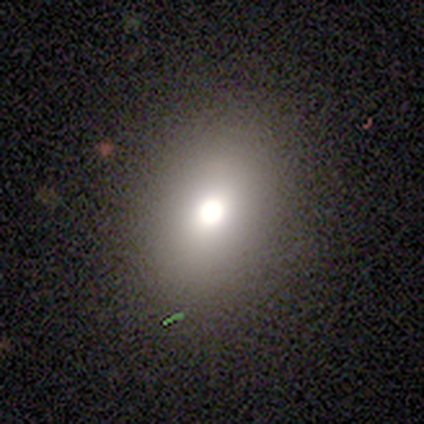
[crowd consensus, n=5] Smooth or featured: smooth — 60% (featured or disk — 20%)
How rounded: in between — 67% (round — 33%)
Merging: none — 100%